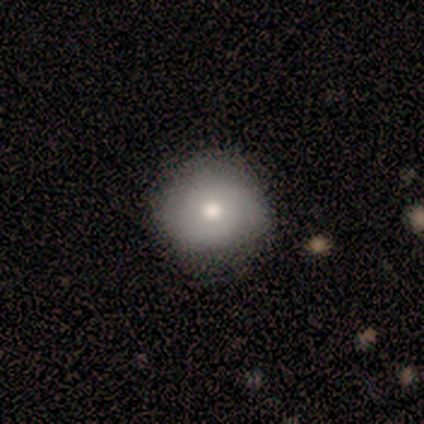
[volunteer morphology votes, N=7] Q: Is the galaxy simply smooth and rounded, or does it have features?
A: smooth — 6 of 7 (86%).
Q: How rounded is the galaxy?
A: round — 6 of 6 (100%).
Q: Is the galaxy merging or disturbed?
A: none — 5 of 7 (71%).